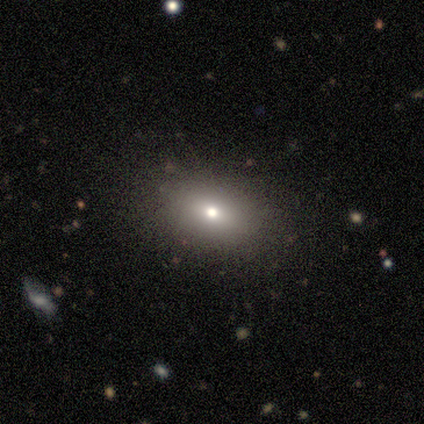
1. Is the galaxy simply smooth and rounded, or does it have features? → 65% smooth, 22% featured or disk, 14% star or artifact.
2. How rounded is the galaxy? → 75% in between, 25% round, 0% cigar-shaped.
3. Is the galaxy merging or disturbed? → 84% none, 9% minor disturbance, 3% major disturbance, 3% merger.